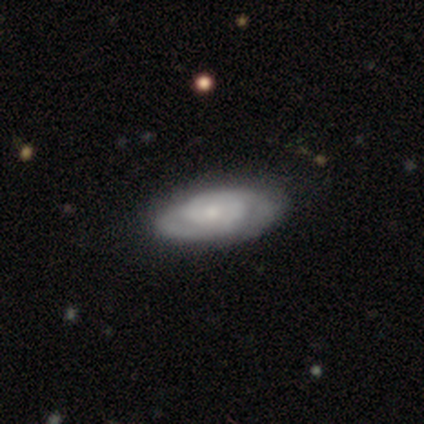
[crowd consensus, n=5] This appears to be a featured or disk galaxy (80%) with no bar (75%), 2 (50%, tied with can't tell) tight (75%) spiral arms (100%) and a moderate central bulge (50%, tied with small). Merging: none (100%).